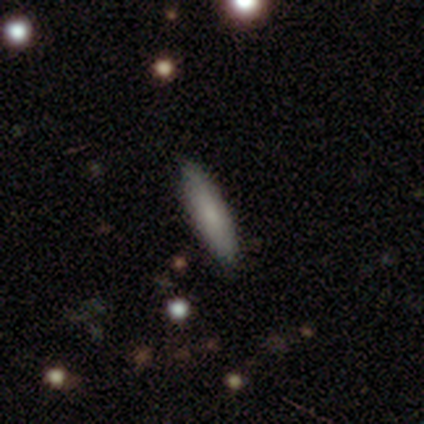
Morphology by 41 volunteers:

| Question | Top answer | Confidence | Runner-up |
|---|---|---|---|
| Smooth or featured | smooth | 73% | featured or disk (15%) |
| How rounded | cigar-shaped | 80% | in between (20%) |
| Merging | none | 89% | minor disturbance (8%) |